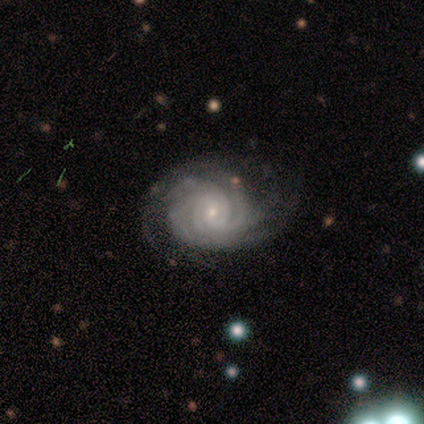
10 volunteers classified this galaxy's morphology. smooth_or_featured: featured or disk (p=1.00)
disk_edge_on: no (p=1.00)
bar: no (p=0.50) [alt: weak p=0.30]
has_spiral_arms: yes (p=1.00)
spiral_winding: tight (p=0.80) [alt: medium p=0.20]
spiral_arm_count: can't tell (p=0.40) [alt: 2 p=0.20]
bulge_size: small (p=1.00)
merging: minor disturbance (p=0.50) [alt: major disturbance p=0.30]